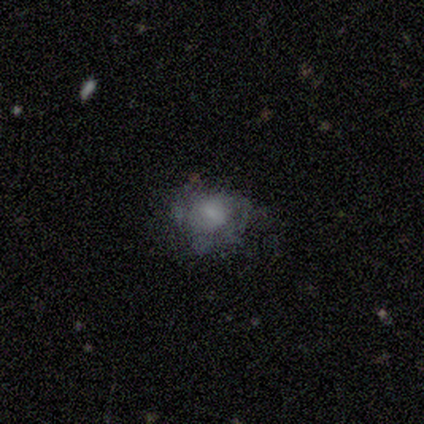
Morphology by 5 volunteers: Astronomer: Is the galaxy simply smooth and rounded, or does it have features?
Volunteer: featured or disk — 60% (runner-up: smooth, 40%).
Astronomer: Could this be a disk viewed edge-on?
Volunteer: no — 100%.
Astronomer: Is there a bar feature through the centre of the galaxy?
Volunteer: no — 100%.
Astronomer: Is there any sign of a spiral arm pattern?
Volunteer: no — 100%.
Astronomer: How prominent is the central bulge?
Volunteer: none — 67%.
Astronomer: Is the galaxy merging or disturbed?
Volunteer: none — 40%, tied with minor disturbance at 40%.